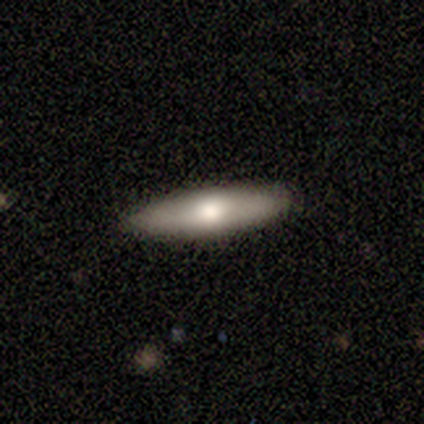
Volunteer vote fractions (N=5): Morphology: type=featured or disk (80%); edge-on=yes (50%, tied with no); edge-on bulge=none (50%, tied with rounded); merging=none (100%).